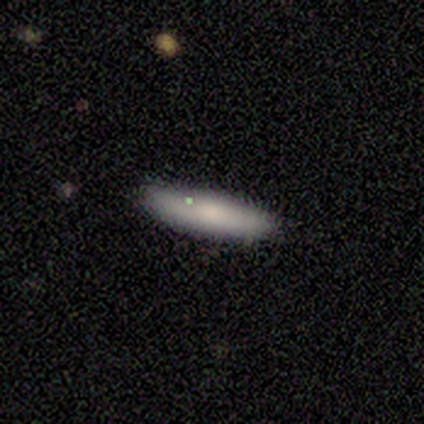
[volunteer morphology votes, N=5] Q: Smooth or featured?
A: smooth (60%); runner-up: featured or disk (40%)
Q: How rounded?
A: cigar-shaped (100%)
Q: Merging?
A: none (100%)